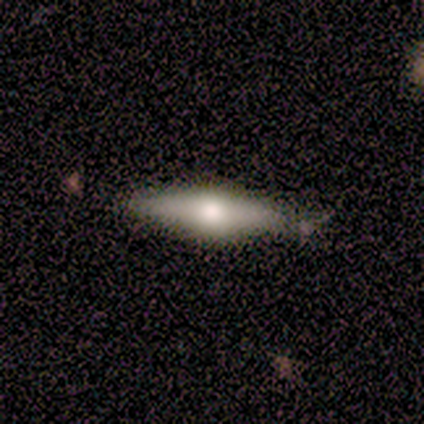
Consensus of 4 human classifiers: Morphology: type=smooth (50%, tied with star or artifact); roundness=cigar-shaped (100%); merging=none (100%).